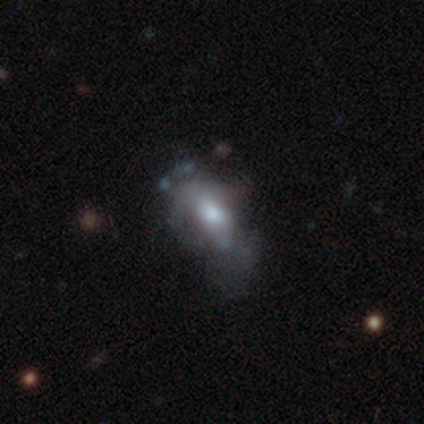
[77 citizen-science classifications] Volunteers were most divided on "smooth or featured": featured or disk: 51%, smooth: 47%, star or artifact: 3%. Remaining: edge-on disk — no (100%); bar — no (77%); spiral arms — no (74%); bulge size — moderate (54%); merging — major disturbance (27%).